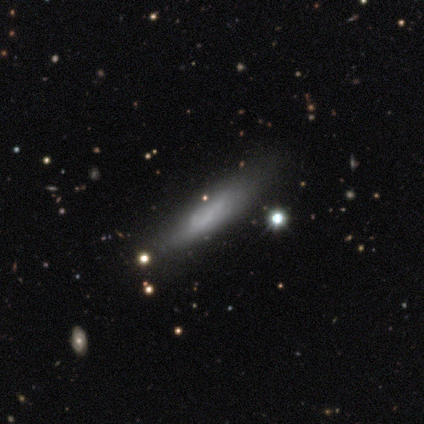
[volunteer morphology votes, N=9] This appears to be a smooth galaxy with no disk features (56%) that is cigar-shaped (80%). Merging: none (78%).